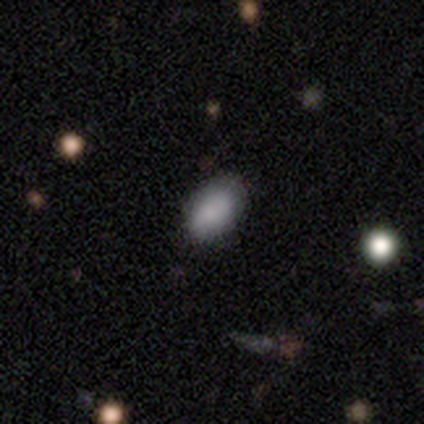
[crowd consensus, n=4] smooth_or_featured: smooth (p=0.50) [tied with: star or artifact p=0.50]
how_rounded: round (p=0.50) [tied with: in between p=0.50]
merging: none (p=1.00)